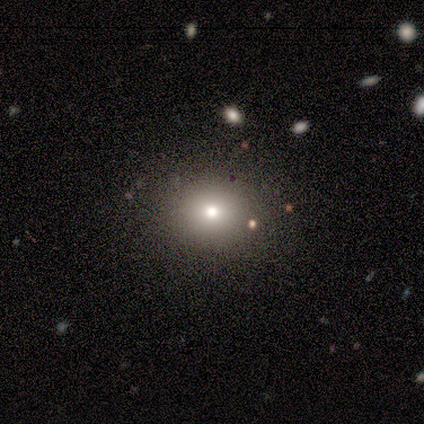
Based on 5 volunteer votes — Smooth or featured?
  - smooth: 60% *
  - featured or disk: 20%
  - star or artifact: 20%
How rounded?
  - round: 100% *
  - in between: 0%
  - cigar-shaped: 0%
Merging?
  - none: 100% *
  - minor disturbance: 0%
  - major disturbance: 0%
  - merger: 0%